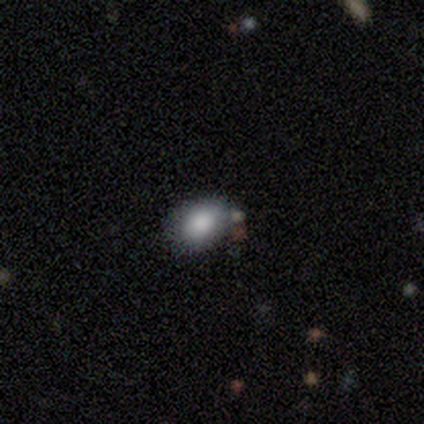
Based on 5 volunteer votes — smooth_or_featured: smooth (p=0.60) [alt: featured or disk p=0.20]
how_rounded: in between (p=1.00)
merging: none (p=0.50) [tied with: minor disturbance p=0.50]